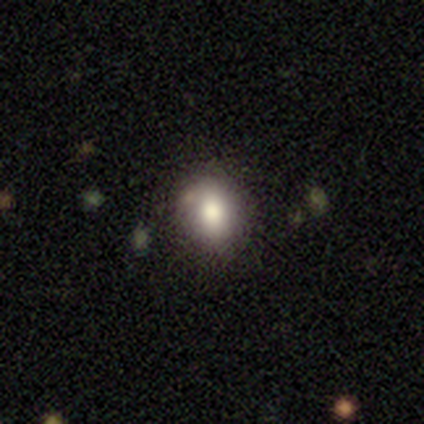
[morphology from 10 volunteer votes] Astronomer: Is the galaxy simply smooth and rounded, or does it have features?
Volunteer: smooth — 90%.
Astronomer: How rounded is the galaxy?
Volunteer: round — 67%.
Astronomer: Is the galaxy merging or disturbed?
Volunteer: none — 90%.